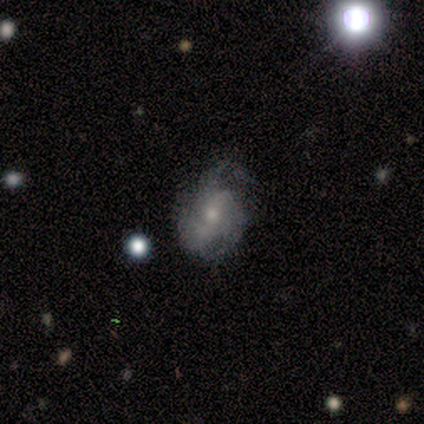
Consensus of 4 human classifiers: A featured or disk galaxy (50%, tied with star or artifact) with no bar (100%), tight (100%) spiral arms (100%) and a moderate central bulge (50%, tied with small).

Vote fractions:
- Smooth or featured? featured or disk: 50% (tied) / star or artifact: 50% (tied) / smooth: 0%
- Edge-on disk? no: 100% / yes: 0%
- Bar? no: 100% / strong: 0% / weak: 0%
- Spiral arms? yes: 100% / no: 0%
- Spiral winding? tight: 100% / medium: 0% / loose: 0%
- Spiral arm count? can't tell: 100% / 1: 0% / 2: 0% / 3: 0% / 4: 0% / more than 4: 0%
- Bulge size? moderate: 50% (tied) / small: 50% (tied) / dominant: 0% / large: 0% / none: 0%
- Merging? none: 50% (tied) / minor disturbance: 50% (tied) / major disturbance: 0% / merger: 0%